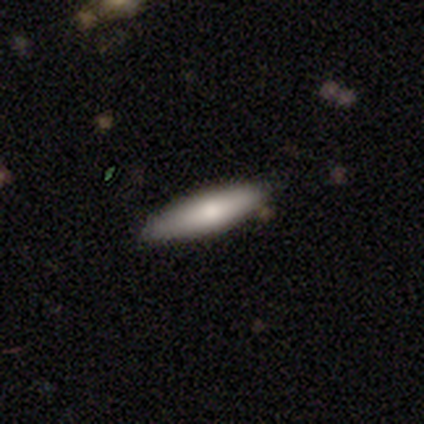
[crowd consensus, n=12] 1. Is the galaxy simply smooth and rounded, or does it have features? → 83% smooth, 8% featured or disk, 8% star or artifact.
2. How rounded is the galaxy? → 80% cigar-shaped, 20% in between, 0% round.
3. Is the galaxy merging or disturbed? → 82% none, 18% minor disturbance, 0% major disturbance, 0% merger.